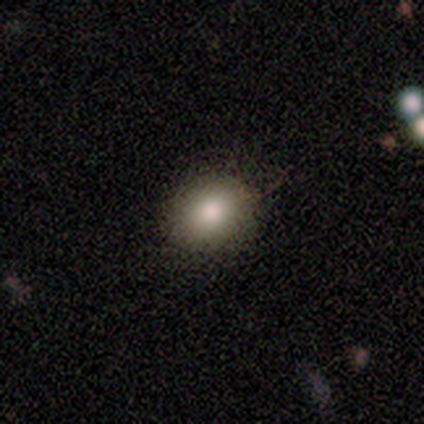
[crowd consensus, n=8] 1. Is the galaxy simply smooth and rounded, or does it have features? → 88% smooth, 12% featured or disk, 0% star or artifact.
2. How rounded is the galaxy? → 71% round, 29% in between, 0% cigar-shaped.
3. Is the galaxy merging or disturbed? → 100% none, 0% minor disturbance, 0% major disturbance, 0% merger.